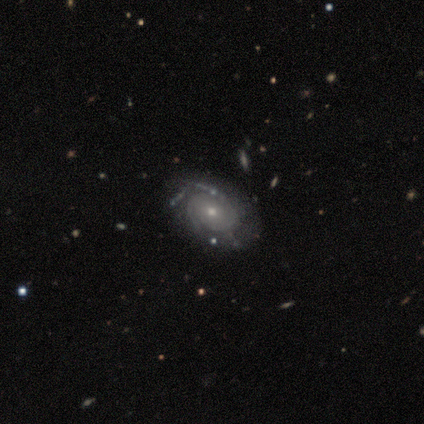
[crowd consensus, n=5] Smooth or featured?
  - featured or disk: 100% *
  - smooth: 0%
  - star or artifact: 0%
Edge-on disk?
  - no: 100% *
  - yes: 0%
Bar?
  - no: 80% *
  - weak: 20%
  - strong: 0%
Spiral arms?
  - yes: 100% *
  - no: 0%
Spiral winding?
  - tight: 60% *
  - medium: 40%
  - loose: 0%
Spiral arm count?
  - 2: 40% * (tied)
  - 3: 40% * (tied)
  - can't tell: 20%
  - 1: 0%
  - 4: 0%
  - more than 4: 0%
Bulge size?
  - moderate: 80% *
  - small: 20%
  - dominant: 0%
  - large: 0%
  - none: 0%
Merging?
  - none: 100% *
  - minor disturbance: 0%
  - major disturbance: 0%
  - merger: 0%